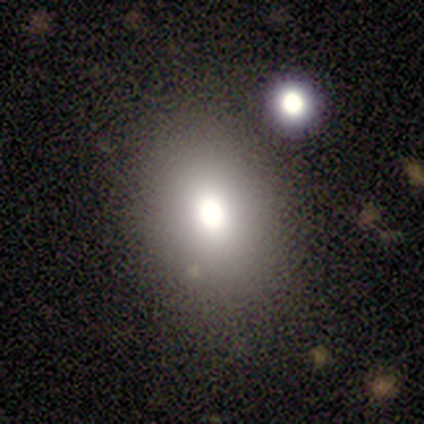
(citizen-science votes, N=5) A smooth galaxy with no disk features (80%) that is in between round and cigar-shaped (100%). Merging: none (100%).